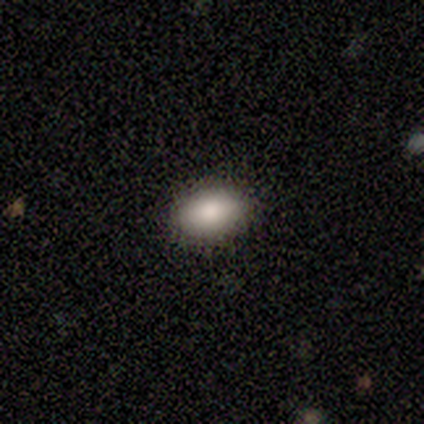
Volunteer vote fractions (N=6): This is clearly a smooth galaxy (100%). How rounded: clearly in between (83%). Merging: clearly none (100%).